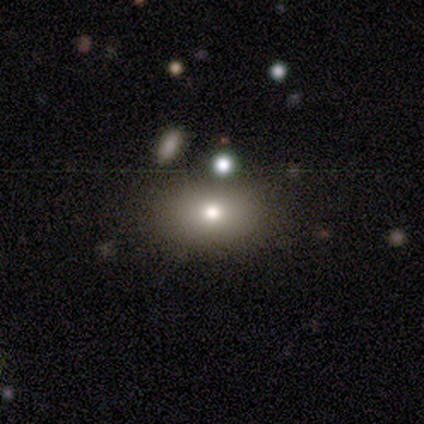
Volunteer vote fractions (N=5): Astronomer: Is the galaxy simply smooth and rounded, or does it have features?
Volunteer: smooth — 60%.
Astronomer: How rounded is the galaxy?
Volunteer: round — 67%.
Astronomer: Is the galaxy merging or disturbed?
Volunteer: none — 75%.